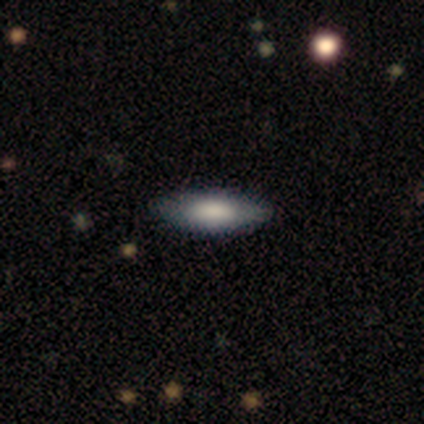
Smooth or featured?
  - featured or disk: 50% *
  - smooth: 38%
  - star or artifact: 12%
Edge-on disk?
  - yes: 50% * (tied)
  - no: 50% * (tied)
Edge-on bulge?
  - rounded: 100% *
  - boxy: 0%
  - none: 0%
Merging?
  - none: 86% *
  - minor disturbance: 14%
  - major disturbance: 0%
  - merger: 0%